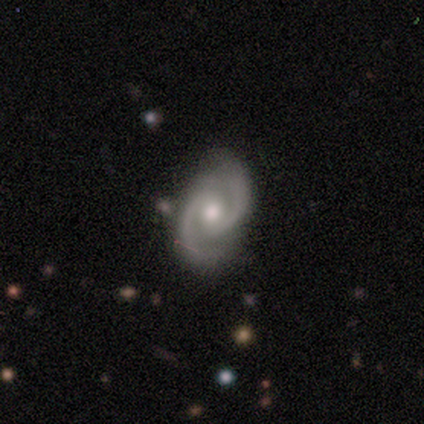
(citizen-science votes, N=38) A featured or disk galaxy (97%) with no bar (57%), 2 (100%) medium (62%) spiral arms (100%) and a moderate central bulge (81%). Merging: none (58%).